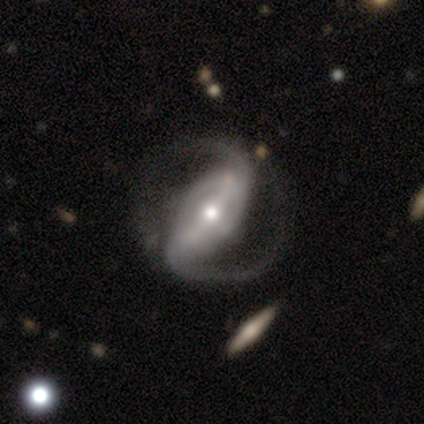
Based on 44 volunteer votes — A featured or disk galaxy (93%) with a strong bar (76%), 2 (90%) loose (54%) spiral arms (100%) and a moderate central bulge (54%).

Vote fractions:
- Smooth or featured? featured or disk: 93% / smooth: 5% / star or artifact: 2%
- Edge-on disk? no: 100% / yes: 0%
- Bar? strong: 76% / weak: 12% / no: 12%
- Spiral arms? yes: 100% / no: 0%
- Spiral winding? loose: 54% / medium: 41% / tight: 5%
- Spiral arm count? 2: 90% / can't tell: 5% / 1: 2% / 3: 2% / 4: 0% / more than 4: 0%
- Bulge size? moderate: 54% / small: 39% / large: 5% / dominant: 2% / none: 0%
- Merging? none: 60% / minor disturbance: 23% / major disturbance: 14% / merger: 2%